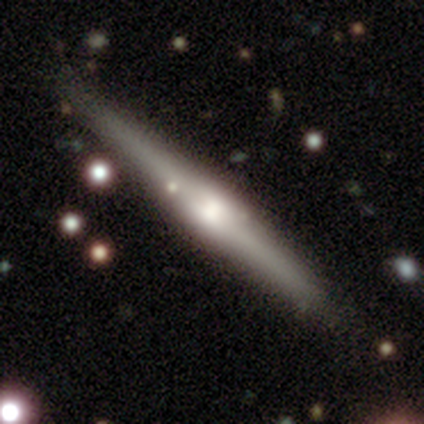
Smooth or featured?
  - featured or disk: 63% *
  - smooth: 27%
  - star or artifact: 10%
Edge-on disk?
  - yes: 100% *
  - no: 0%
Edge-on bulge?
  - rounded: 65% *
  - boxy: 27%
  - none: 8%
Merging?
  - none: 73% *
  - minor disturbance: 14%
  - merger: 11%
  - major disturbance: 3%